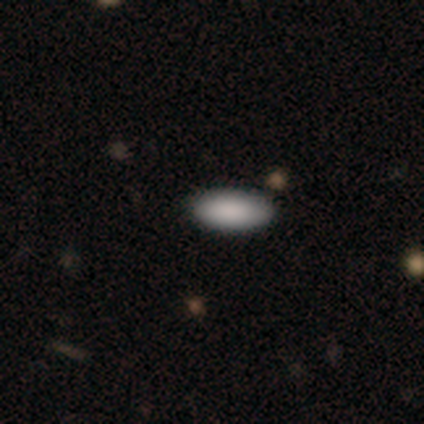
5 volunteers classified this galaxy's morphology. Smooth or featured? 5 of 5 (100%) said smooth. How rounded? 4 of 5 (80%) said in between. Merging? 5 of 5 (100%) said none.